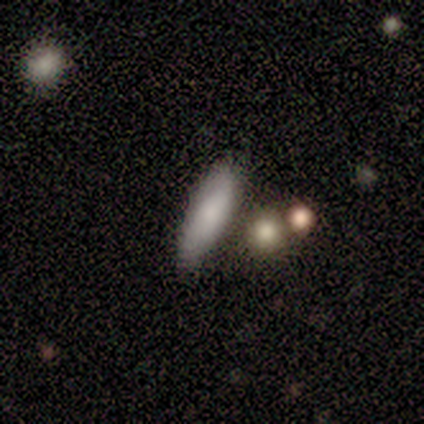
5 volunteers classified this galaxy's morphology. Volunteers were most divided on "merging": none: 60%, minor disturbance: 40%, major disturbance: 0%, merger: 0%. More confident: smooth or featured — smooth (100%); how rounded — cigar-shaped (80%).